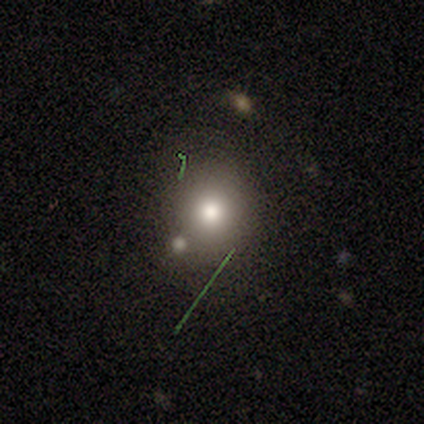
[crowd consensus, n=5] This appears to be a smooth galaxy with no disk features (100%) that is round (80%). Merging: none (60%).